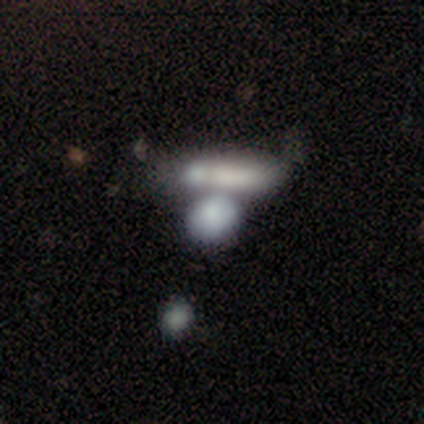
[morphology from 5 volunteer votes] Smooth or featured?
  - smooth: 60% *
  - featured or disk: 20%
  - star or artifact: 20%
How rounded?
  - round: 67% *
  - in between: 33%
  - cigar-shaped: 0%
Merging?
  - none: 75% *
  - merger: 25%
  - minor disturbance: 0%
  - major disturbance: 0%